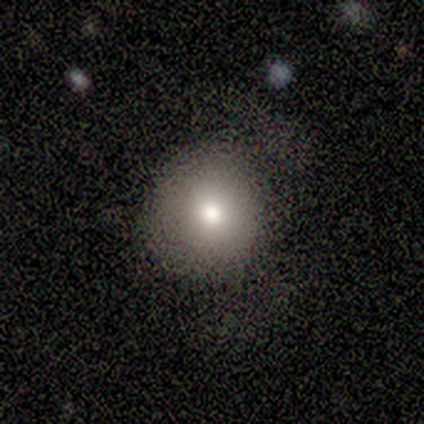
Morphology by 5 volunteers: smooth-or-featured: smooth: 80% | star or artifact: 20% | featured or disk: 0%
  how-rounded: round: 100% | in between: 0% | cigar-shaped: 0%
  merging: minor disturbance: 75% | none: 25% | major disturbance: 0% | merger: 0%